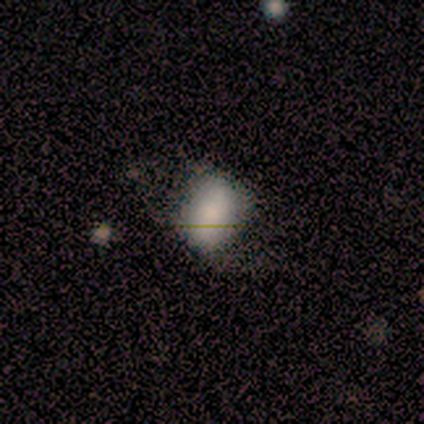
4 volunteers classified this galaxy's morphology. Overall: smooth (75%). How rounded: round (67%; in between 33%). Merging: minor disturbance (50%; none 25%).